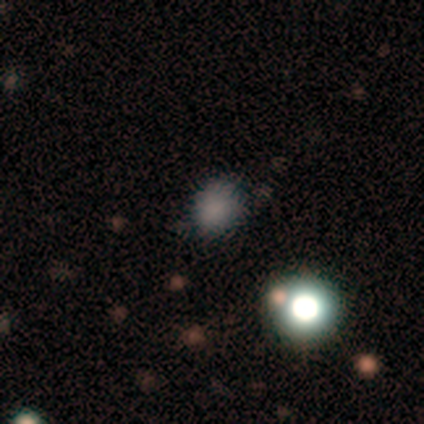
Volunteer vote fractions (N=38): Q: Smooth or featured?
A: smooth (71%); runner-up: star or artifact (29%)
Q: How rounded?
A: round (74%); runner-up: in between (26%)
Q: Merging?
A: none (81%); runner-up: minor disturbance (15%)